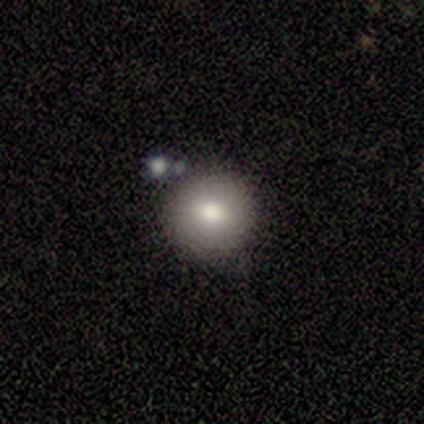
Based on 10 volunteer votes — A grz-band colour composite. It shows a smooth galaxy with no disk features (70%) that is round (100%). Merging: none (100%).